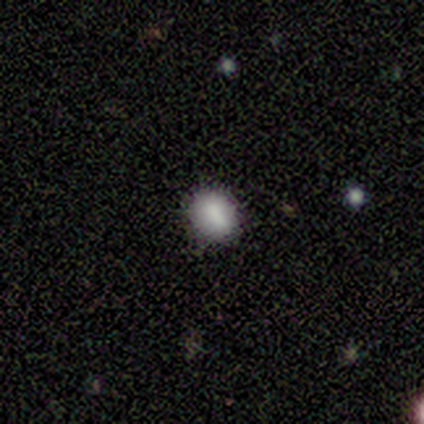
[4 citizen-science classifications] Smooth or featured: smooth — 50% (featured or disk — 25%)
How rounded: round — 50% (tied with in between — 50%)
Merging: none — 67% (minor disturbance — 33%)